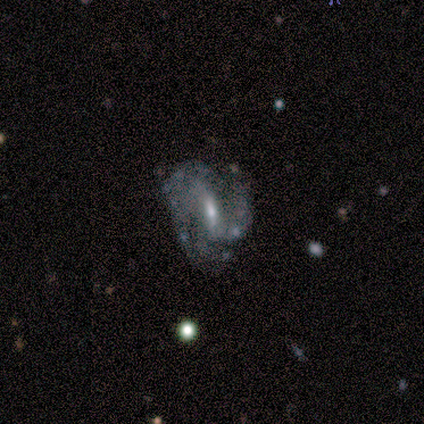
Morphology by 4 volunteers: Overall: featured or disk (100%). Edge-on disk: no (100%). Bar: weak (100%). Spiral arms: yes (100%). Spiral arm count: 2 (75%). Spiral winding: medium (75%). Bulge size: moderate (50%, tied with small). Merging: none (50%, tied with minor disturbance).